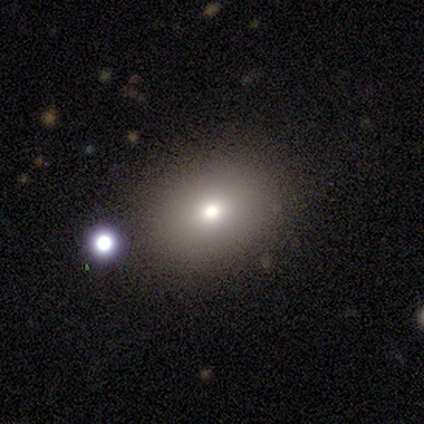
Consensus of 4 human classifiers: This is possibly a smooth galaxy (50%, tied with star or artifact). How rounded: clearly in between (100%). Merging: possibly none (50%, tied with minor disturbance).